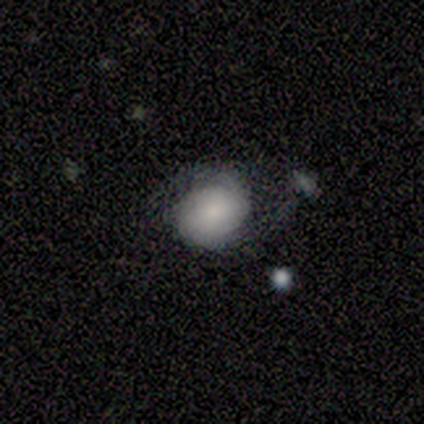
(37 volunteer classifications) Smooth or featured: smooth — 59% (featured or disk — 38%)
How rounded: in between — 55% (round — 45%)
Merging: none — 39% (minor disturbance — 33%)